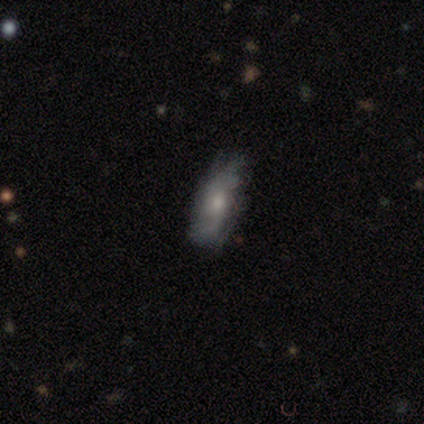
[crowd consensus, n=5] Morphology: type=featured or disk (80%); edge-on=no (75%); bar=no (67%); spiral arms=no (67%); bulge=moderate (67%); merging=minor disturbance (50%).